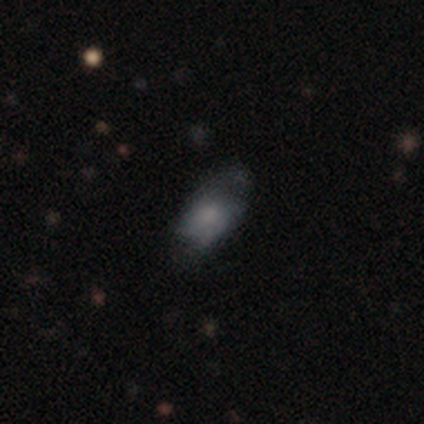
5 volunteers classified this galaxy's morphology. A featured or disk galaxy (60%) with no bar (67%), 2 (100%) tight (50%, tied with medium) spiral arms (67%) and a moderate central bulge (67%). Merging: none (40%, tied with minor disturbance).